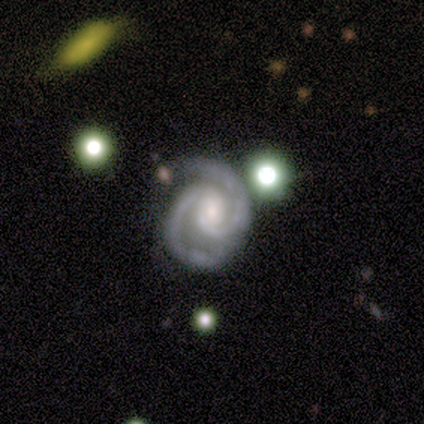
Morphology: type=featured or disk (100%); edge-on=no (75%); bar=no (100%); spiral arms=yes (100%); winding=tight (100%); arm count=2 (100%); bulge=large (33%, tied with moderate and small); merging=none (75%).